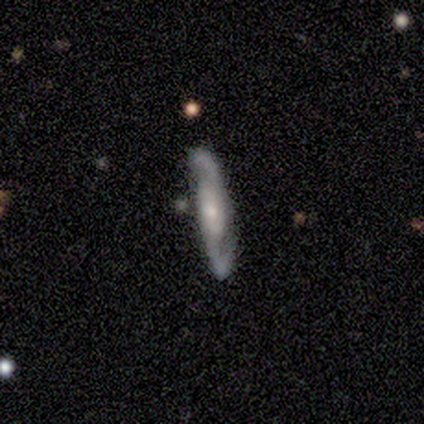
A featured or disk galaxy (80%) viewed edge-on (50%, tied with no) with a boxy central bulge (100%).

Vote fractions:
- Smooth or featured? featured or disk: 80% / smooth: 20% / star or artifact: 0%
- Edge-on disk? yes: 50% (tied) / no: 50% (tied)
- Edge-on bulge? boxy: 100% / none: 0% / rounded: 0%
- Merging? none: 80% / major disturbance: 20% / minor disturbance: 0% / merger: 0%